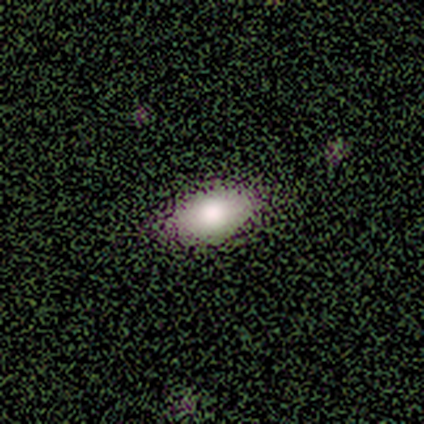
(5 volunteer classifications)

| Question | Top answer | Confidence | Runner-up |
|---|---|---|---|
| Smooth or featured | smooth | 100% | — |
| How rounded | in between | 100% | — |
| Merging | none | 80% | major disturbance (20%) |